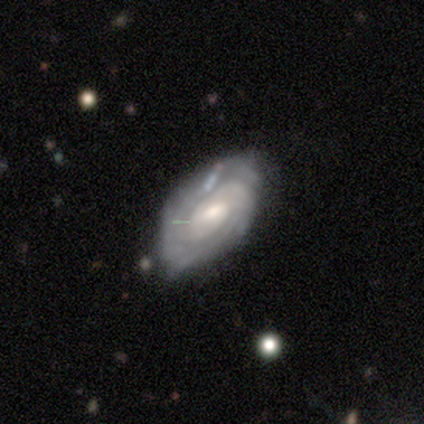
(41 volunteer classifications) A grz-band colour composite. It shows a featured or disk galaxy (93%) with a weak bar (68%), tight (83%) spiral arms (97%) and a moderate central bulge (65%). Merging: none (68%).